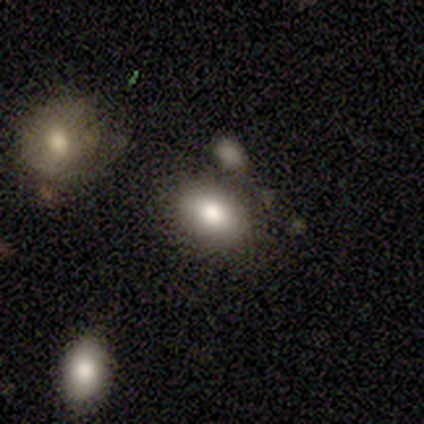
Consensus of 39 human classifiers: smooth-or-featured: smooth: 82% | featured or disk: 10% | star or artifact: 8%
  how-rounded: in between: 91% | round: 9% | cigar-shaped: 0%
  merging: none: 69% | minor disturbance: 17% | merger: 14% | major disturbance: 0%